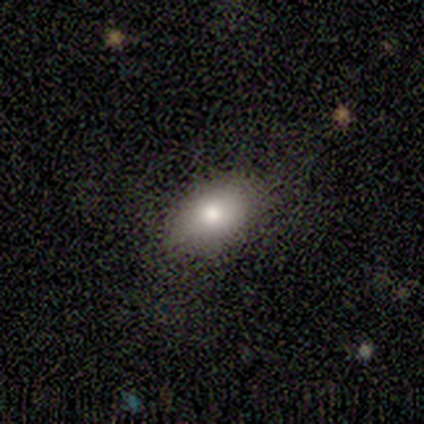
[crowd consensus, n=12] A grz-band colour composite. It shows a smooth galaxy with no disk features (92%) that is in between round and cigar-shaped (100%). Merging: none (75%).